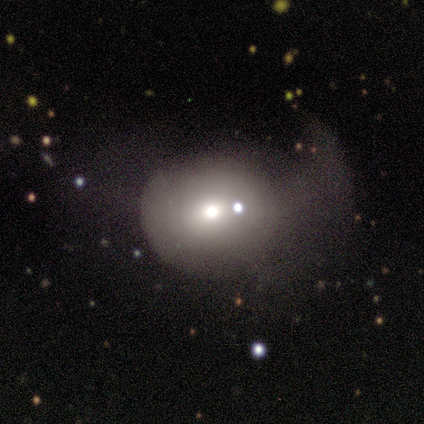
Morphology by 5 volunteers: Smooth or featured? 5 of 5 (100%) said smooth. How rounded? 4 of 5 (80%) said round. Merging? 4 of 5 (80%) said none.